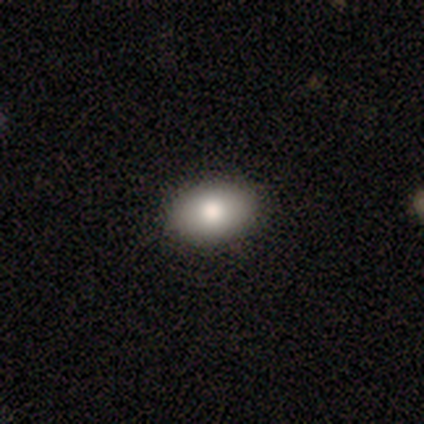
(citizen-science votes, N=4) smooth 100%, featured or disk 0%, star or artifact 0%. Down the decision tree: how rounded — in between (75%); merging — none (100%).